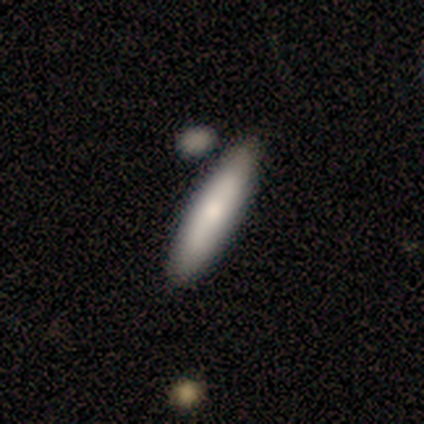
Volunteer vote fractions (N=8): smooth 88%, featured or disk 12%, star or artifact 0%. Down the decision tree: how rounded — cigar-shaped (86%); merging — none (75%).